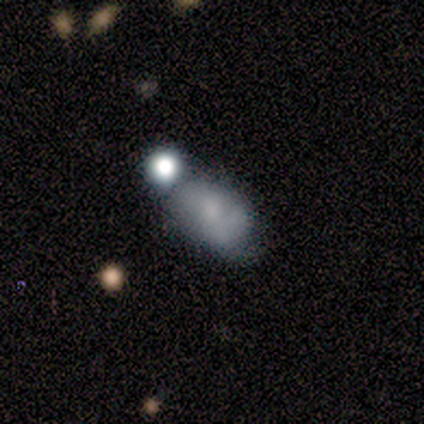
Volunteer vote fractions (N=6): Overall: smooth (50%; featured or disk 33%). How rounded: in between (100%). Merging: minor disturbance (60%; merger 40%).